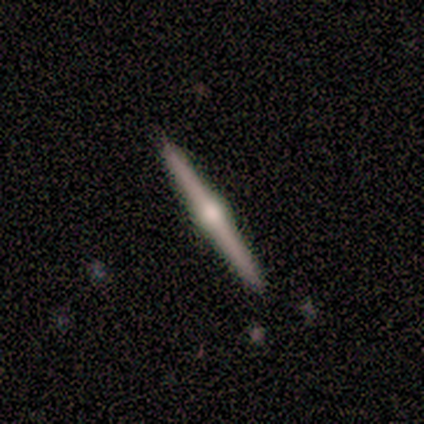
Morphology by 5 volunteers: Consensus on every question: smooth or featured — featured or disk (100%); edge-on disk — yes (100%); edge-on bulge — rounded (100%); merging — none (100%).